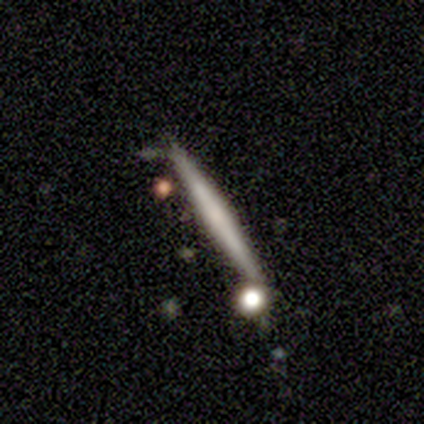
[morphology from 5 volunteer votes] type=featured or disk (60%); edge-on=yes (100%); edge-on bulge=none (100%); merging=none (100%).